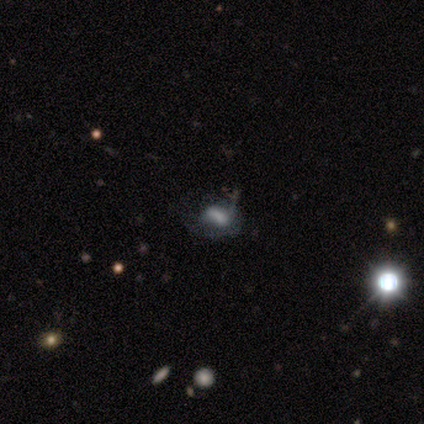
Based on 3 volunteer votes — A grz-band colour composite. It shows a smooth galaxy with no disk features (67%) that is round (50%, tied with in between). Merging: minor disturbance (67%).